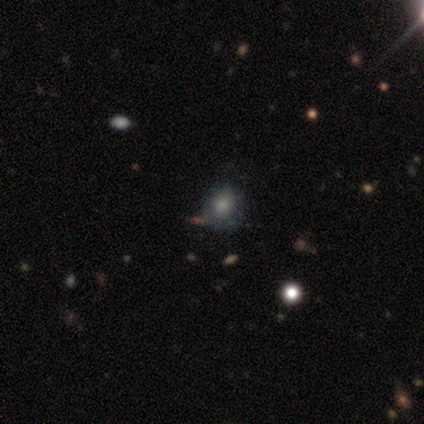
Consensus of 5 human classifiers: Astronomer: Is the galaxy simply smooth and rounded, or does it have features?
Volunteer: smooth — 40%, tied with featured or disk at 40%.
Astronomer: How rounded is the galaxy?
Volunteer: round — 100%.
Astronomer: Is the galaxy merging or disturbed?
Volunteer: none — 100%.